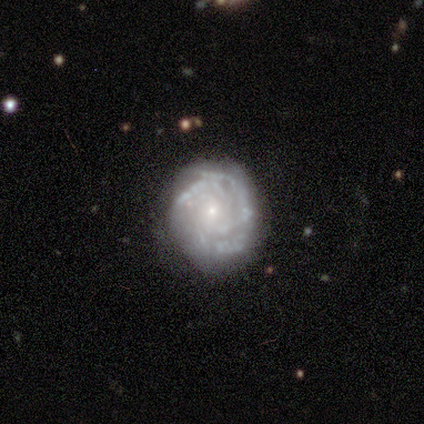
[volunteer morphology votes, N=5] This appears to be a featured or disk galaxy (80%) with a weak bar (50%, tied with no), 3 (67%) tight (100%) spiral arms (75%) and a small central bulge (75%). Merging: minor disturbance (75%).